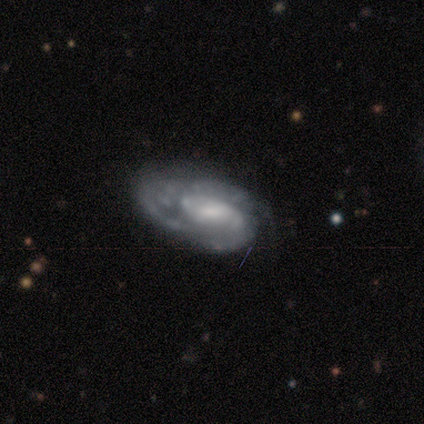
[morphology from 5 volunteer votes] Smooth or featured?
  - featured or disk: 100% *
  - smooth: 0%
  - star or artifact: 0%
Edge-on disk?
  - no: 100% *
  - yes: 0%
Bar?
  - no: 60% *
  - strong: 20%
  - weak: 20%
Spiral arms?
  - yes: 100% *
  - no: 0%
Spiral winding?
  - medium: 40% * (tied)
  - loose: 40% * (tied)
  - tight: 20%
Spiral arm count?
  - 2: 60% *
  - 3: 20%
  - can't tell: 20%
  - 1: 0%
  - 4: 0%
  - more than 4: 0%
Bulge size?
  - moderate: 40% *
  - large: 20%
  - small: 20%
  - none: 20%
  - dominant: 0%
Merging?
  - minor disturbance: 40% *
  - none: 20%
  - major disturbance: 20%
  - merger: 20%